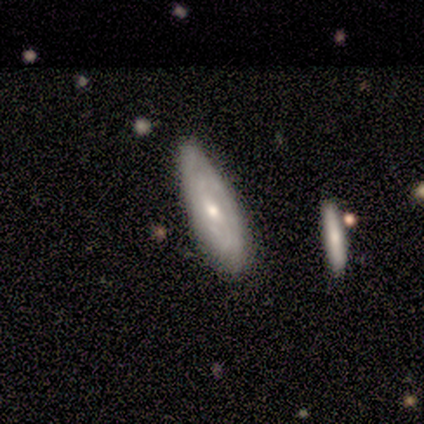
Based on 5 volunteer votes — Smooth or featured? 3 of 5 (60%) said smooth. How rounded? 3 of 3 (100%) said in between. Merging? 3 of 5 (60%) said none.